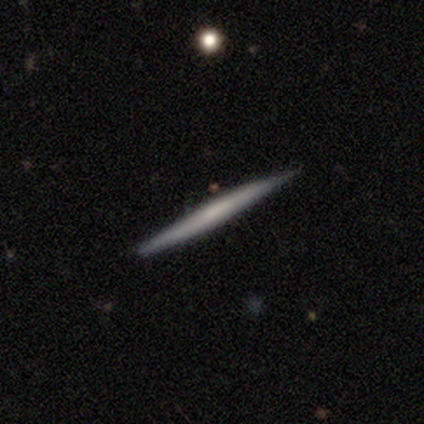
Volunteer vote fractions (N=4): A featured or disk galaxy (75%) viewed edge-on (100%) with no central bulge (100%). Merging: none (100%).